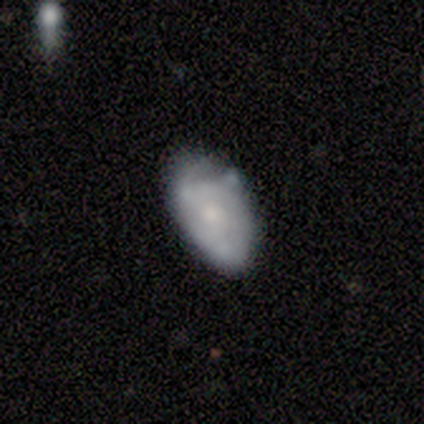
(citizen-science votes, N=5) This appears to be a featured or disk galaxy (80%) with no bar (75%), tight (50%, tied with medium) spiral arms (100%) and a moderate central bulge (100%). Merging: minor disturbance (80%).